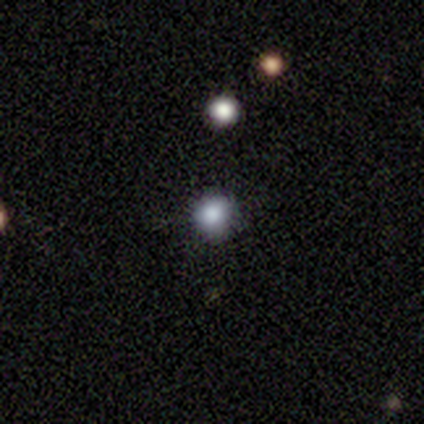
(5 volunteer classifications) A star or artifact, not a galaxy (60%).